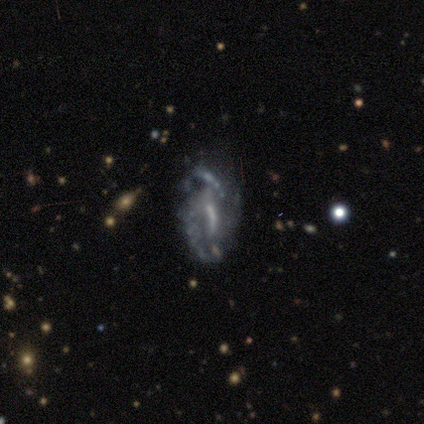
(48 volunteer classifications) Morphology: type=featured or disk (85%); edge-on=no (95%); bar=strong (38%); spiral arms=yes (59%); winding=loose (43%); arm count=can't tell (39%); bulge=none (36%); merging=none (37%, tied with major disturbance).